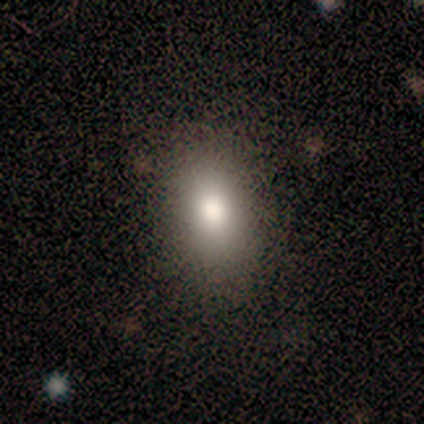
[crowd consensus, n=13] smooth 69%, star or artifact 23%, featured or disk 8%. Down the decision tree: how rounded — in between (78%); merging — none (60%).